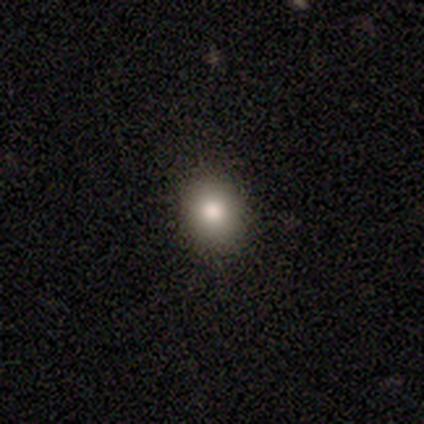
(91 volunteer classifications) smooth 78%, star or artifact 13%, featured or disk 9%. Down the decision tree: how rounded — round (70%); merging — none (91%).